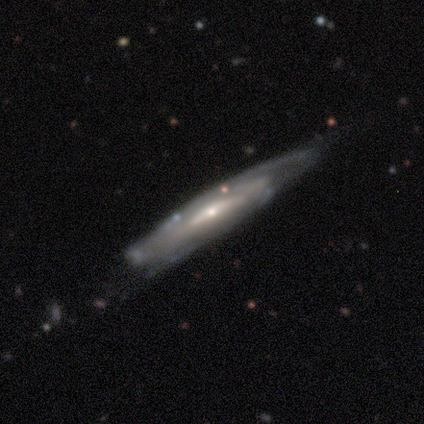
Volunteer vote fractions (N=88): This appears to be a featured or disk galaxy (83%) viewed edge-on (56%) with a rounded central bulge (51%). Merging: none (53%).